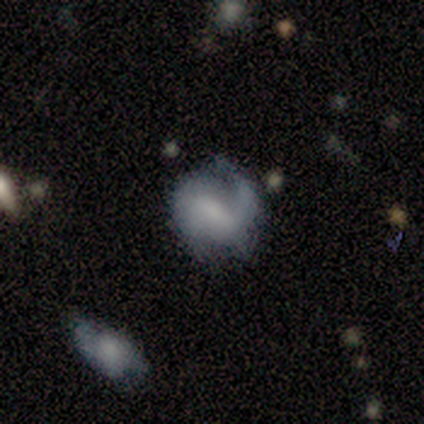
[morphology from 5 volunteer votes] type=featured or disk (80%); edge-on=no (100%); bar=no (50%); spiral arms=yes (75%); winding=medium (100%); arm count=1 (33%, tied with 2 and can't tell); bulge=none (75%); merging=none (60%).